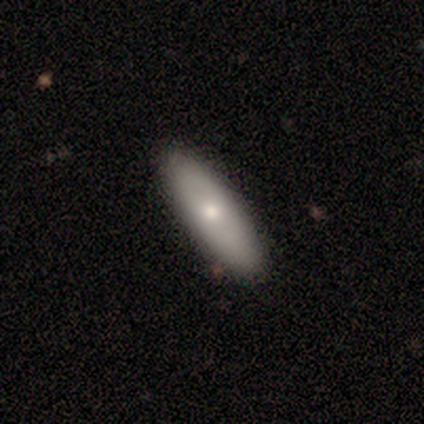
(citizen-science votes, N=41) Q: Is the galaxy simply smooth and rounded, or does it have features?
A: smooth — 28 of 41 (68%).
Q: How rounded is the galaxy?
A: in between — 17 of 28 (61%).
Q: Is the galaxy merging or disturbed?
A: none — 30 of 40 (75%).